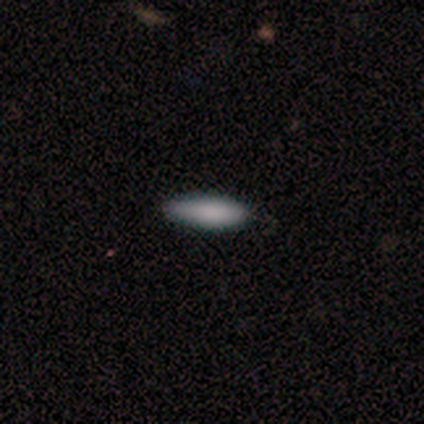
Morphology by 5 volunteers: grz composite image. It shows a smooth galaxy with no disk features (100%) that is cigar-shaped (60%). Merging: none (80%).